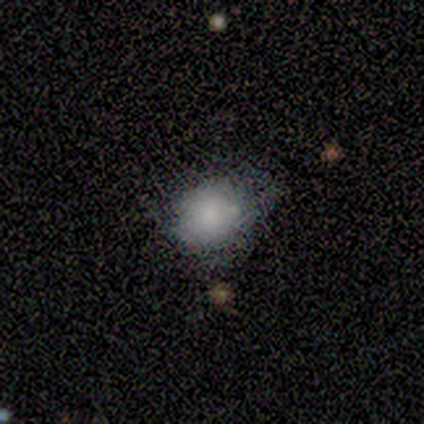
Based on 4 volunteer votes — Smooth or featured: smooth — 100%
How rounded: round — 75% (in between — 25%)
Merging: none — 50% (tied with minor disturbance — 50%)